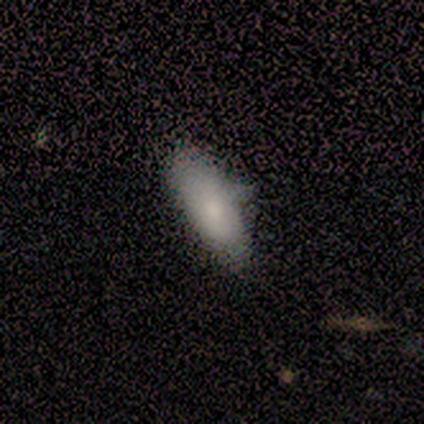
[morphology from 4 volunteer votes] smooth-or-featured: smooth: 100% | featured or disk: 0% | star or artifact: 0%
  how-rounded: in between: 50% | round: 25% | cigar-shaped: 25%
  merging: none: 100% | minor disturbance: 0% | major disturbance: 0% | merger: 0%